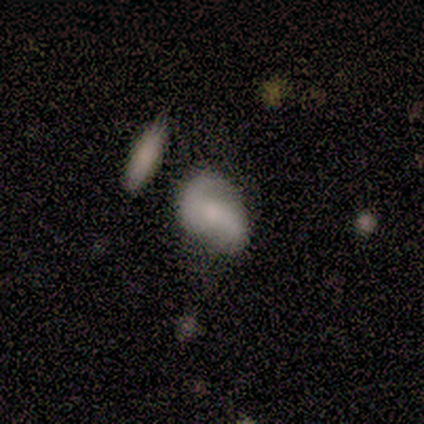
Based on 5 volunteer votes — smooth 60%, featured or disk 40%, star or artifact 0%. Down the decision tree: how rounded — in between (100%); merging — none (40%, tied with minor disturbance).